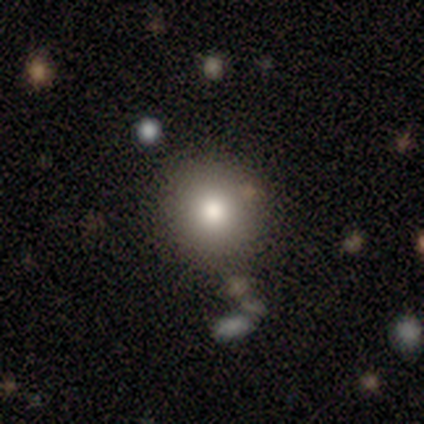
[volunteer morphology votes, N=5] A smooth galaxy with no disk features (80%) that is round (100%).

Vote fractions:
- Smooth or featured? smooth: 80% / star or artifact: 20% / featured or disk: 0%
- How rounded? round: 100% / in between: 0% / cigar-shaped: 0%
- Merging? none: 100% / minor disturbance: 0% / major disturbance: 0% / merger: 0%